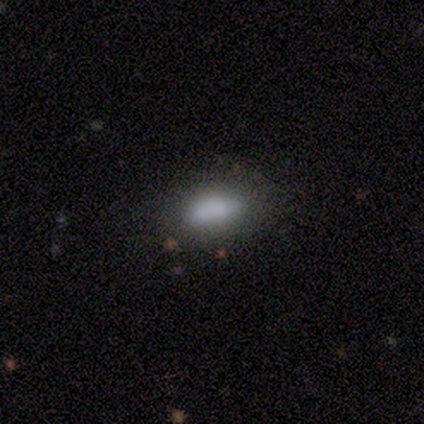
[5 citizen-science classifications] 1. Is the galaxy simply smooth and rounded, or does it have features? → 60% smooth, 20% featured or disk, 20% star or artifact.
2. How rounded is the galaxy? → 67% in between, 33% cigar-shaped, 0% round.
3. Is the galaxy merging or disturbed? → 75% none, 25% minor disturbance, 0% major disturbance, 0% merger.